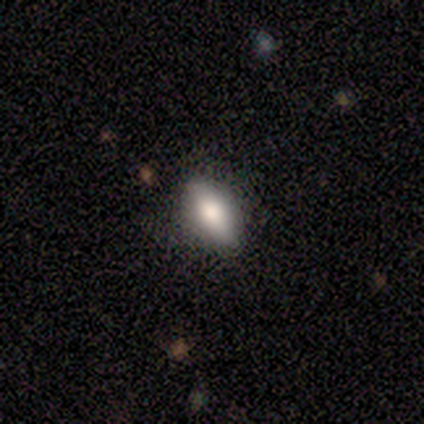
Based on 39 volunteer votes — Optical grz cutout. It shows a smooth galaxy with no disk features (74%) that is in between round and cigar-shaped (86%). Merging: none (82%).